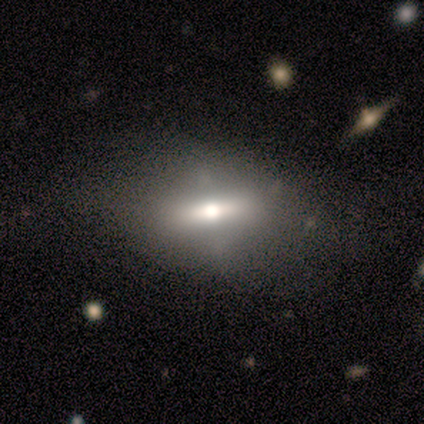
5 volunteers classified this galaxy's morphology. smooth_or_featured: smooth (p=0.40) [tied with: featured or disk p=0.40]
how_rounded: in between (p=1.00)
merging: minor disturbance (p=0.75) [alt: none p=0.25]